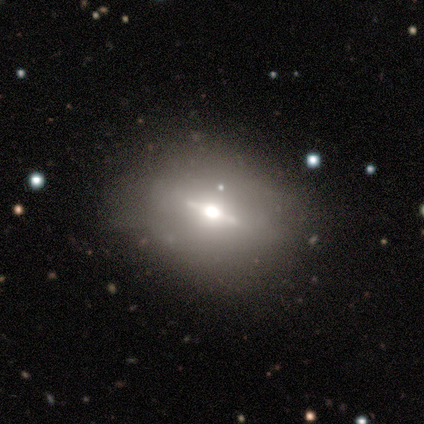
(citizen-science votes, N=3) smooth_or_featured: smooth (p=0.33) [tied with: featured or disk p=0.33, star or artifact p=0.33]
how_rounded: in between (p=1.00)
merging: none (p=0.50) [tied with: minor disturbance p=0.50]